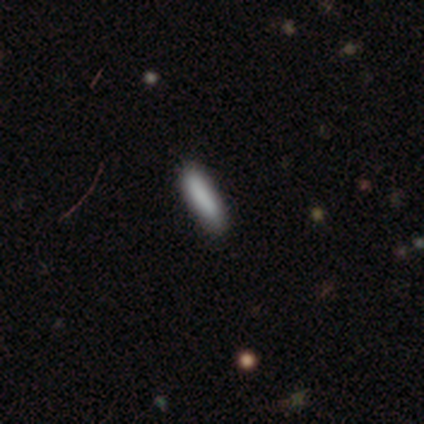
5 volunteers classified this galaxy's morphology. Overall: smooth (60%; featured or disk 20%). How rounded: cigar-shaped (100%). Merging: none (50%, tied with minor disturbance).